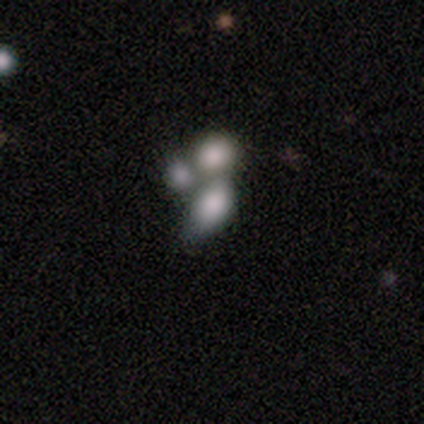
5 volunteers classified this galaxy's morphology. smooth_or_featured: smooth (p=0.40) [tied with: featured or disk p=0.40]
how_rounded: in between (p=1.00)
merging: merger (p=1.00)